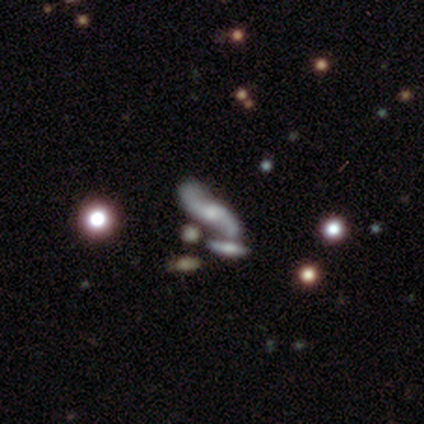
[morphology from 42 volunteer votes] Q: Smooth or featured?
A: featured or disk (81%); runner-up: smooth (12%)
Q: Edge-on disk?
A: no (88%); runner-up: yes (12%)
Q: Bar?
A: no (63%); runner-up: weak (23%)
Q: Spiral arms?
A: yes (83%); runner-up: no (17%)
Q: Spiral winding?
A: loose (88%); runner-up: medium (8%)
Q: Spiral arm count?
A: 2 (96%); runner-up: can't tell (4%)
Q: Bulge size?
A: small (57%); runner-up: moderate (27%)
Q: Merging?
A: none (54%); runner-up: merger (36%)